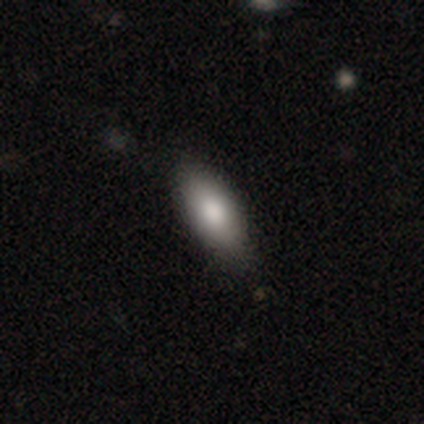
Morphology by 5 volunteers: smooth_or_featured: featured or disk (p=0.60) [alt: smooth p=0.40]
disk_edge_on: no (p=0.67) [alt: yes p=0.33]
bar: no (p=1.00)
has_spiral_arms: no (p=1.00)
bulge_size: large (p=0.50) [tied with: moderate p=0.50]
merging: none (p=0.80) [alt: minor disturbance p=0.20]